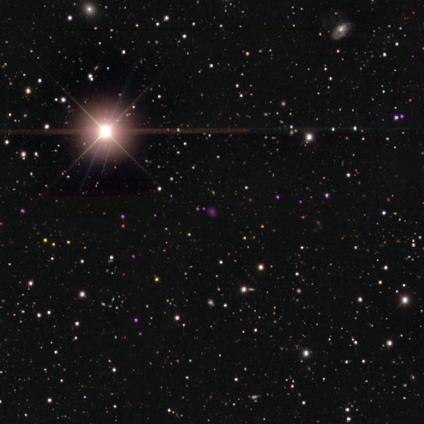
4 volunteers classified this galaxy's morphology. smooth_or_featured: star or artifact (p=1.00)